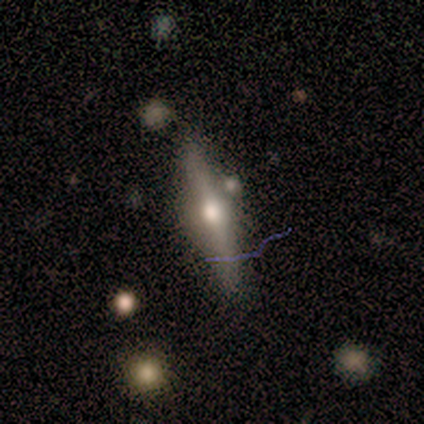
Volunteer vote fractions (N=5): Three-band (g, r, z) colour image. It shows a featured or disk galaxy (60%) viewed edge-on (100%) with a rounded central bulge (100%). Merging: none (80%).